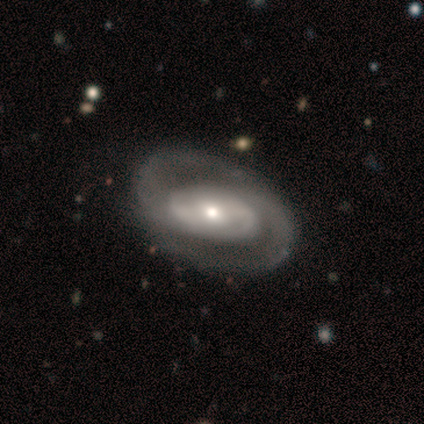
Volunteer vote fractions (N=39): Volunteers were most divided on "bulge size": small: 50%, moderate: 41%, large: 6%, none: 3%, dominant: 0%. Remaining: spiral arm count — 2 (97%); spiral arms — yes (94%); edge-on disk — no (91%); smooth or featured — featured or disk (90%); merging — none (74%); spiral winding — medium (47%); bar — no (44%).